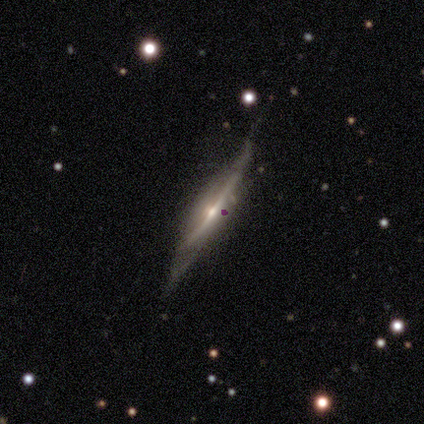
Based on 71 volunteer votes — Smooth or featured? 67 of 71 (94%) said featured or disk. Edge-on disk? 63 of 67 (94%) said yes. Edge-on bulge? 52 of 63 (83%) said rounded. Merging? 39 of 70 (56%) said none.